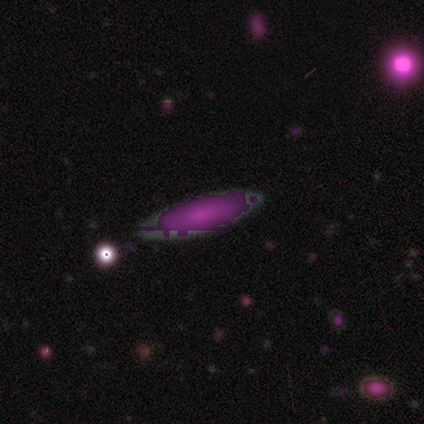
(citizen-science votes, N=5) Smooth or featured: smooth — 60% (star or artifact — 40%)
How rounded: in between — 67% (cigar-shaped — 33%)
Merging: none — 67% (minor disturbance — 33%)